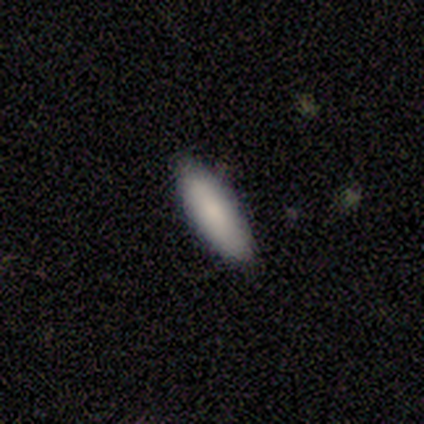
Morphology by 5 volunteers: smooth 80%, featured or disk 20%, star or artifact 0%. Down the decision tree: how rounded — cigar-shaped (75%); merging — none (80%).